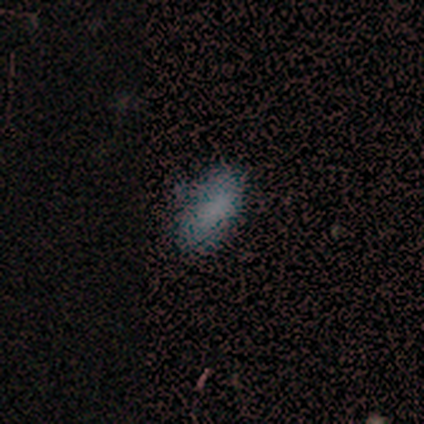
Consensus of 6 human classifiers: This appears to be a smooth galaxy with no disk features (67%) that is in between round and cigar-shaped (100%). Merging: none (100%).